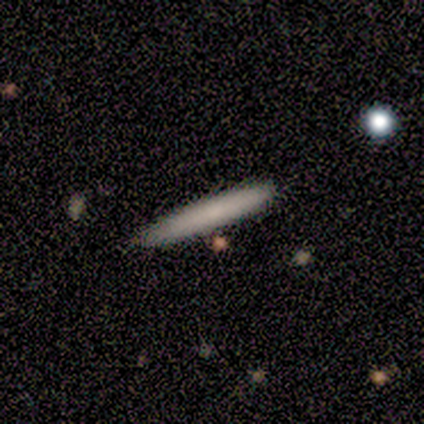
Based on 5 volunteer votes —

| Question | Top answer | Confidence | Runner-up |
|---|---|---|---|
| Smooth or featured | smooth | 80% | featured or disk (20%) |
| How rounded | cigar-shaped | 100% | — |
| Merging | none | 100% | — |